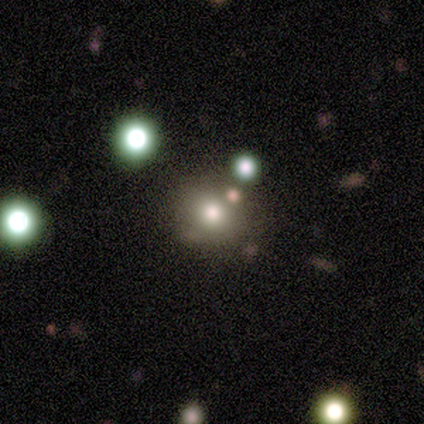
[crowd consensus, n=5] Smooth or featured?
  - smooth: 80% *
  - star or artifact: 20%
  - featured or disk: 0%
How rounded?
  - round: 100% *
  - in between: 0%
  - cigar-shaped: 0%
Merging?
  - none: 75% *
  - minor disturbance: 25%
  - major disturbance: 0%
  - merger: 0%